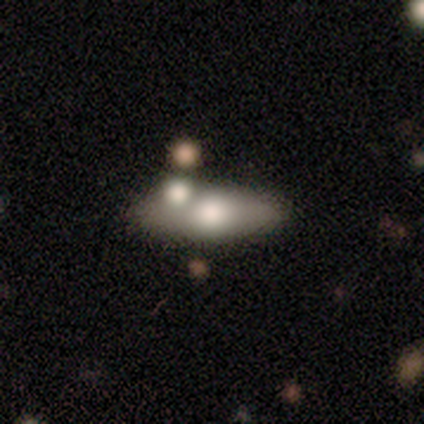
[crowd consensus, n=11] smooth 64%, featured or disk 36%, star or artifact 0%. Down the decision tree: how rounded — in between (86%); merging — none (55%).